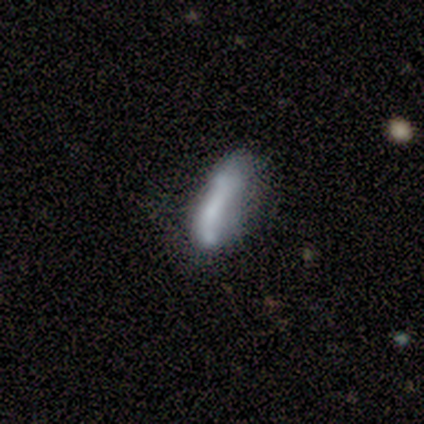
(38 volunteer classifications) smooth 42% (tied), featured or disk 42% (tied), star or artifact 16%. Down the decision tree: how rounded — in between (50%, tied with cigar-shaped); merging — minor disturbance (41%).